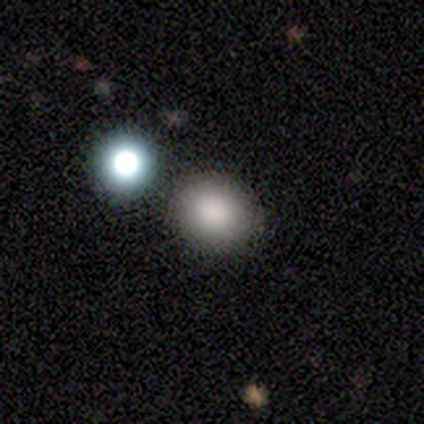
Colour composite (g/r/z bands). It shows a star or artifact, not a galaxy (75%).